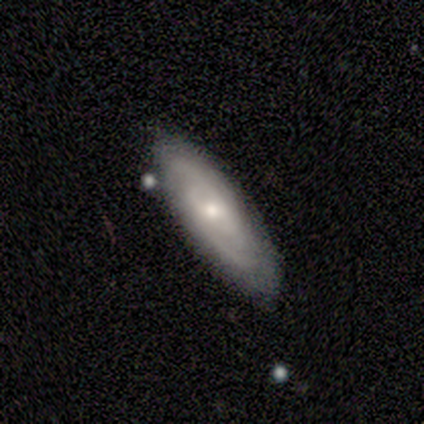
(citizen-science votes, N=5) smooth_or_featured: smooth (p=0.60) [alt: featured or disk p=0.40]
how_rounded: in between (p=1.00)
merging: none (p=1.00)